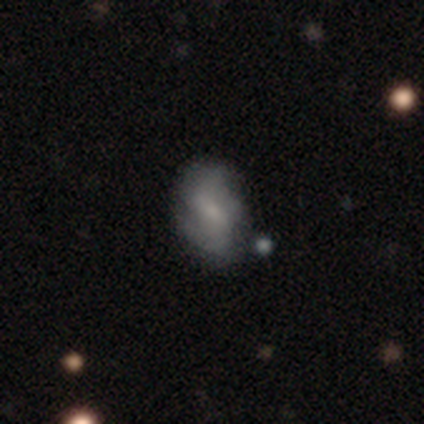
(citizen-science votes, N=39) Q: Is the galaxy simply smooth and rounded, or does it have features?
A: featured or disk — 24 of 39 (62%).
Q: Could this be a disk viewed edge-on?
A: no — 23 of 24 (96%).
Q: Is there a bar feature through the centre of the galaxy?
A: weak — 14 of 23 (61%).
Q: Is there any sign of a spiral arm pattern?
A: yes — 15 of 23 (65%).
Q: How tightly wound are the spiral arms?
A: medium — 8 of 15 (53%).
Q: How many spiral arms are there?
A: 2 — 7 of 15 (47%).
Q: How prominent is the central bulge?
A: small — 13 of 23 (57%).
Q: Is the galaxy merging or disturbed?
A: none — 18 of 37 (49%).